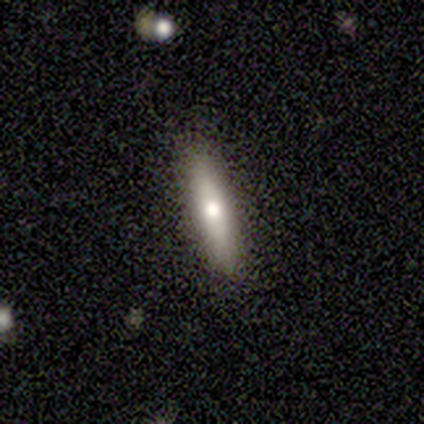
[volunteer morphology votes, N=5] Smooth or featured? 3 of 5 (60%) said featured or disk. Edge-on disk? 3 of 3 (100%) said yes. Edge-on bulge? 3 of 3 (100%) said rounded. Merging? 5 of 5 (100%) said none.